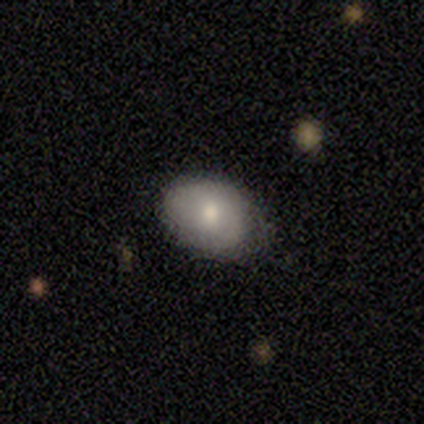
Morphology: type=smooth (80%); roundness=in between (75%); merging=none (80%).